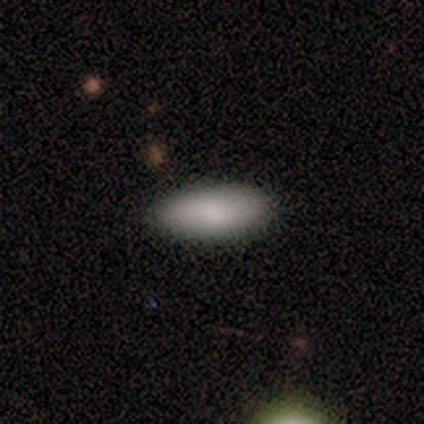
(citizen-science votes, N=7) Volunteers were most divided on "smooth or featured": smooth: 86%, featured or disk: 14%, star or artifact: 0%. More confident: how rounded — in between (100%); merging — none (86%).